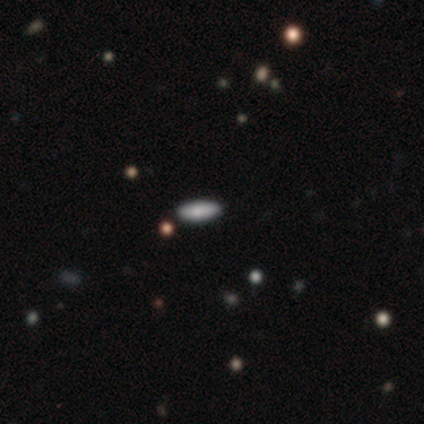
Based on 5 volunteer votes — This is clearly a smooth galaxy (80%). How rounded: possibly in between (50%, tied with cigar-shaped). Merging: clearly none (100%).